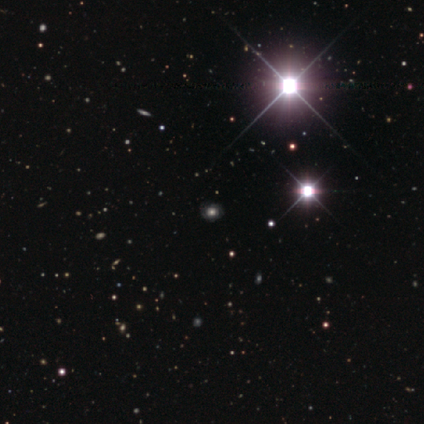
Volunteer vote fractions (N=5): Q: Smooth or featured?
A: smooth (80%); runner-up: star or artifact (20%)
Q: How rounded?
A: round (100%)
Q: Merging?
A: none (100%)